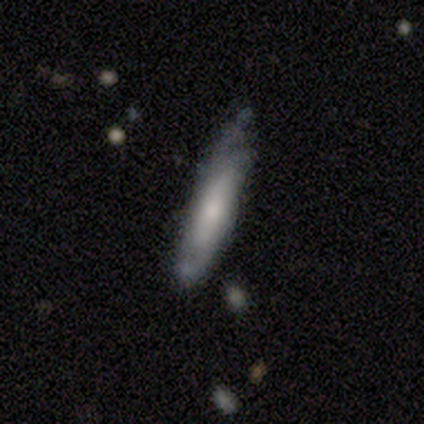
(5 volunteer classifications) Q: Smooth or featured?
A: featured or disk (60%); runner-up: smooth (20%)
Q: Edge-on disk?
A: yes (67%); runner-up: no (33%)
Q: Edge-on bulge?
A: none (100%)
Q: Merging?
A: minor disturbance (50%); runner-up: none (25%)